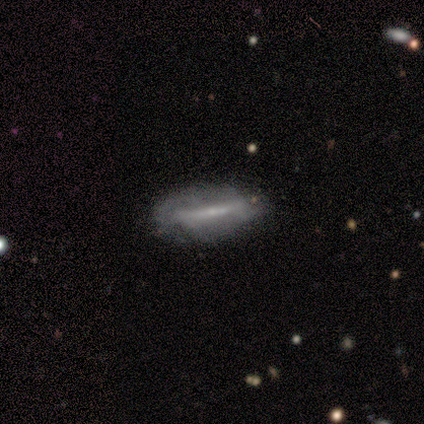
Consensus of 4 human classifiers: Q: Smooth or featured?
A: featured or disk (50%); runner-up: smooth (25%)
Q: Edge-on disk?
A: yes (50%); tied with: no (50%)
Q: Edge-on bulge?
A: boxy (100%)
Q: Merging?
A: none (33%); tied with: minor disturbance (33%); major disturbance (33%)